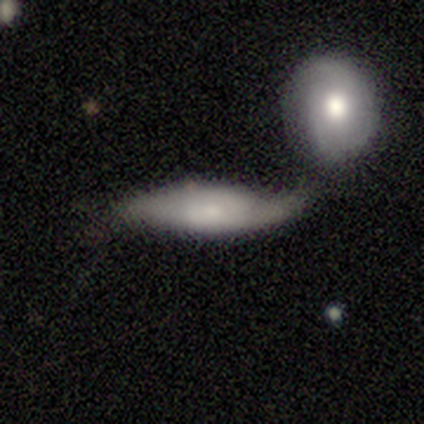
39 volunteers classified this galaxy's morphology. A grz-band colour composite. It shows a smooth galaxy with no disk features (59%) that is cigar-shaped (61%). Merging: minor disturbance (34%, tied with merger).